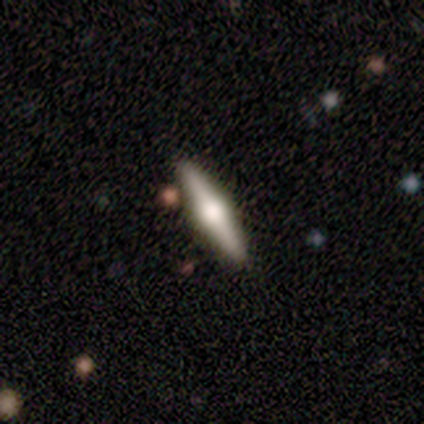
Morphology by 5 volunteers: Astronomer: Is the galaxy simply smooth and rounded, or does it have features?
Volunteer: smooth — 40%, tied with featured or disk at 40%.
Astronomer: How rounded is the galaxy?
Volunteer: in between — 50%, tied with cigar-shaped at 50%.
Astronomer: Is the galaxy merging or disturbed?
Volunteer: none — 100%.